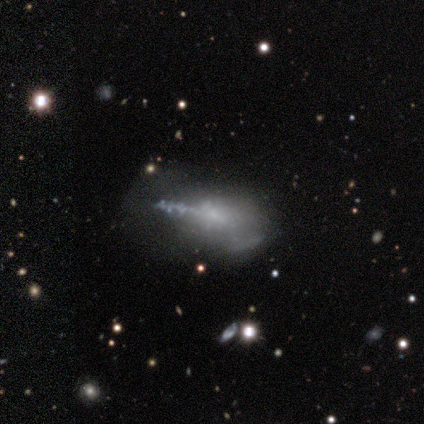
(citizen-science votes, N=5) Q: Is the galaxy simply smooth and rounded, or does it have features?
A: smooth — 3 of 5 (60%).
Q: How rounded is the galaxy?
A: in between — 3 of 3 (100%).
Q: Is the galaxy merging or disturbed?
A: minor disturbance — 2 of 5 (40%).